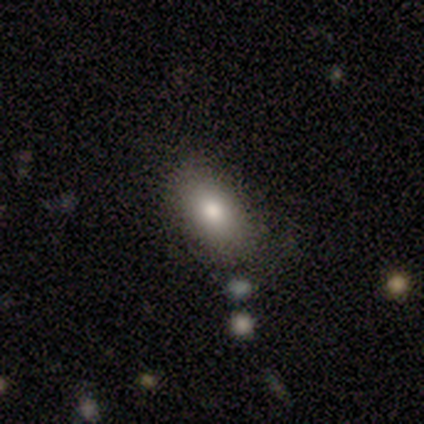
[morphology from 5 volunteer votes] Smooth or featured? 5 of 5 (100%) said smooth. How rounded? 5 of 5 (100%) said in between. Merging? 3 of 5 (60%) said none.